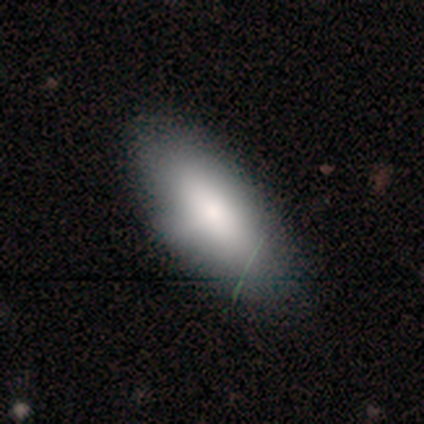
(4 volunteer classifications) This appears to be a smooth galaxy with no disk features (75%) that is in between round and cigar-shaped (67%). Merging: none (100%).